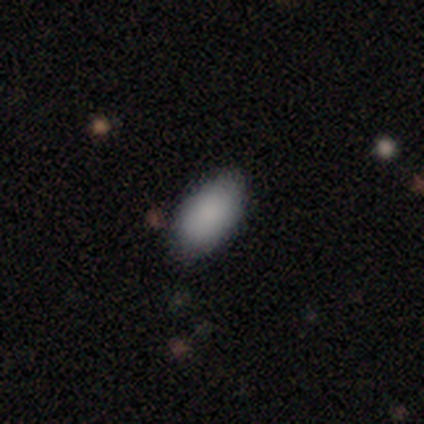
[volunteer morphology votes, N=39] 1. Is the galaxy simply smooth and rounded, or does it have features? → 95% smooth, 3% featured or disk, 3% star or artifact.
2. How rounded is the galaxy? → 97% in between, 3% round, 0% cigar-shaped.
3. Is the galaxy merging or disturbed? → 76% none, 21% minor disturbance, 3% major disturbance, 0% merger.